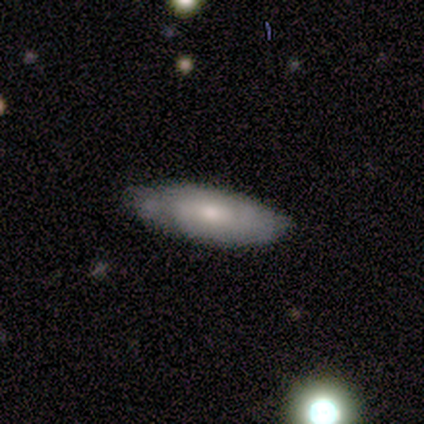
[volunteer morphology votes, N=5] smooth-or-featured: smooth: 60% | featured or disk: 40% | star or artifact: 0%
  how-rounded: in between: 100% | round: 0% | cigar-shaped: 0%
  merging: none: 100% | minor disturbance: 0% | major disturbance: 0% | merger: 0%